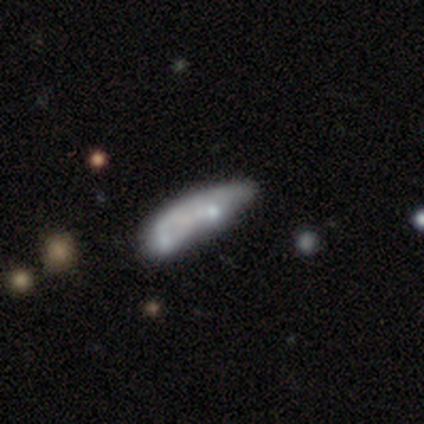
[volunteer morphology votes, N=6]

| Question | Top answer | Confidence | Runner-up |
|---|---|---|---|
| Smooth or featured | featured or disk | 67% | smooth (33%) |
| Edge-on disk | no | 100% | — |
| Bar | no | 100% | — |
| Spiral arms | no | 100% | — |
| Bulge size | moderate | 50% | tied: none (50%) |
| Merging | merger | 67% | none (17%) |